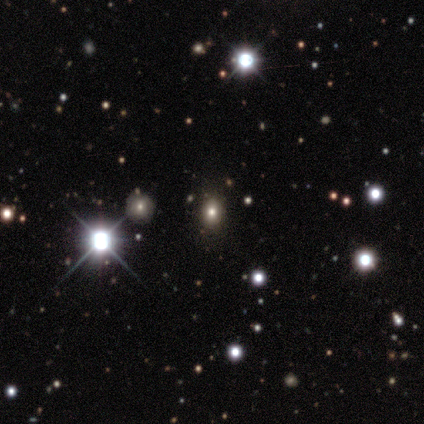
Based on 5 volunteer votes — This appears to be a star or artifact, not a galaxy (60%).